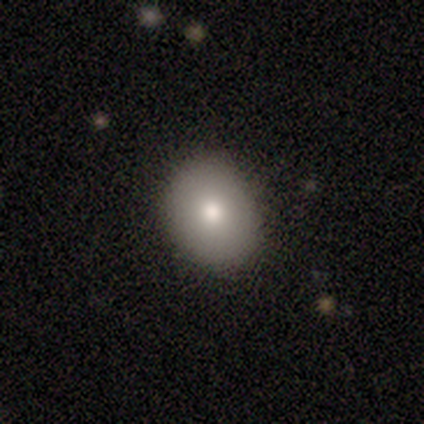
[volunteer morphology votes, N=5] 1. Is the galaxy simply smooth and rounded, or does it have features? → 100% smooth, 0% featured or disk, 0% star or artifact.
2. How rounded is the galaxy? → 80% round, 20% in between, 0% cigar-shaped.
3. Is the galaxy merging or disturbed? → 80% none, 20% major disturbance, 0% minor disturbance, 0% merger.